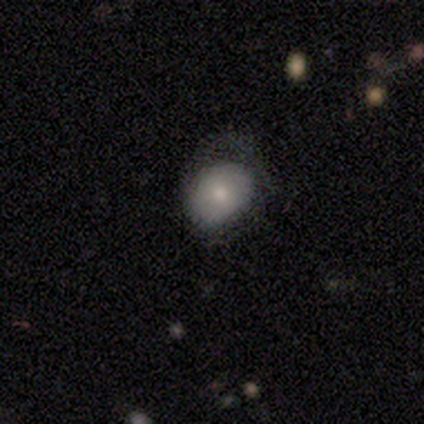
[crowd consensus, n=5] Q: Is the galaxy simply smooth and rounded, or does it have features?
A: smooth — 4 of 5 (80%).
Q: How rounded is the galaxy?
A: round — 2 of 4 (50%, tied with in between).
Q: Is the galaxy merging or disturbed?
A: none — 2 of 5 (40%, tied with minor disturbance).